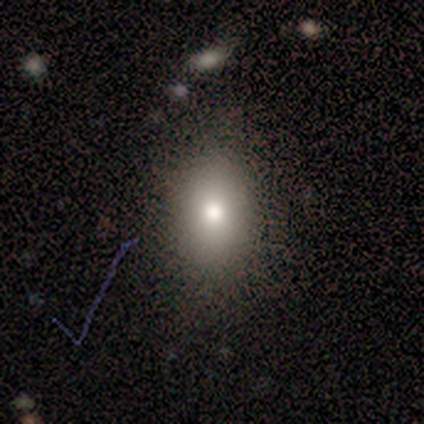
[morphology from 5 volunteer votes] A smooth galaxy with no disk features (60%) that is in between round and cigar-shaped (67%). Merging: none (75%).